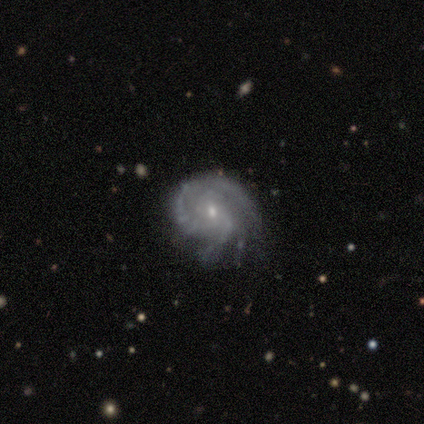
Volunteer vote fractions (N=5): Morphology: type=featured or disk (100%); edge-on=no (80%); bar=no (75%); spiral arms=yes (100%); winding=tight (75%); arm count=can't tell (50%); bulge=small (100%); merging=none (60%).